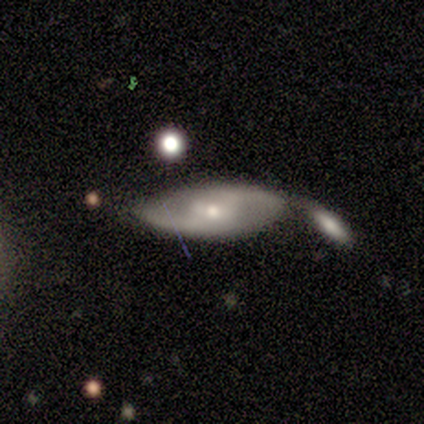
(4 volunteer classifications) Smooth or featured? featured or disk (75%)
Edge-on disk? no (100%)
Bar? weak (100%)
Spiral arms? yes (100%)
Spiral winding? loose (67%)
Spiral arm count? 2 (100%)
Bulge size? small (67%)
Merging? major disturbance (50%)